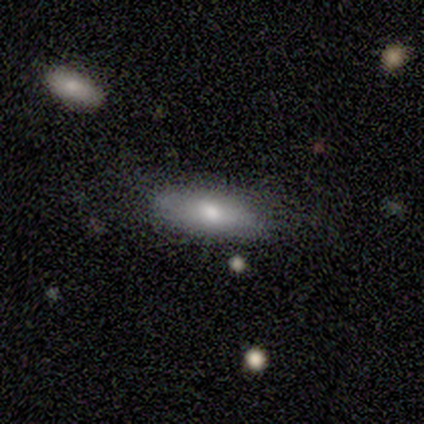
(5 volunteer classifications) Overall: smooth (80%). How rounded: in between (75%). Merging: none (100%).